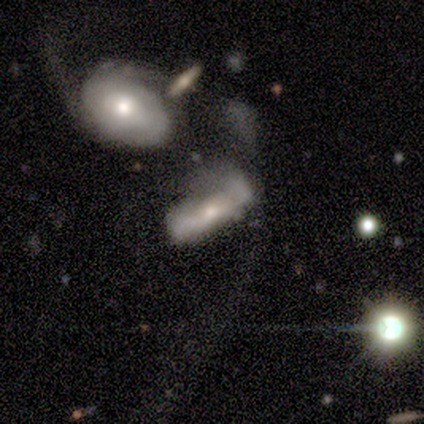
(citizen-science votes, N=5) smooth_or_featured: featured or disk (p=0.60) [alt: smooth p=0.40]
disk_edge_on: yes (p=0.67) [alt: no p=0.33]
edge_on_bulge: none (p=0.50) [tied with: rounded p=0.50]
merging: major disturbance (p=0.40) [tied with: merger p=0.40]